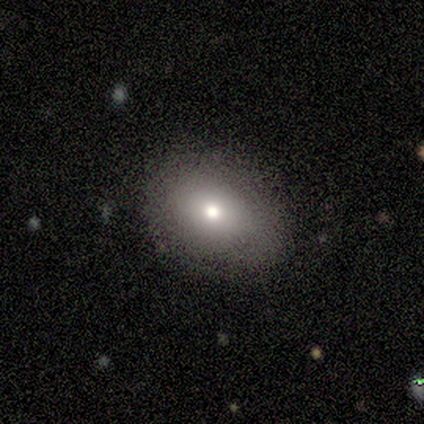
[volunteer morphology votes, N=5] Overall: smooth (80%). How rounded: round (50%, tied with in between). Merging: none (100%).